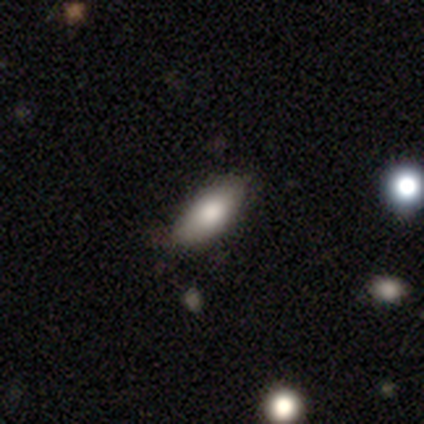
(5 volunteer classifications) Smooth or featured? smooth (80%)
How rounded? in between (100%)
Merging? none (100%)